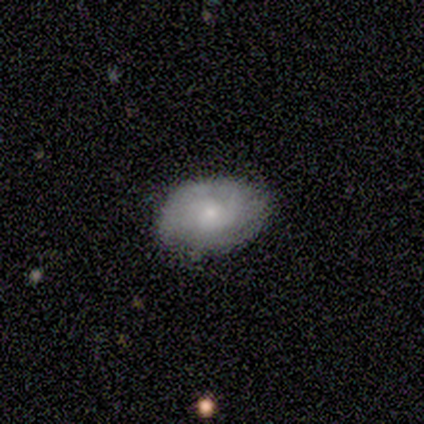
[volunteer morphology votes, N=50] A smooth galaxy with no disk features (58%) that is in between round and cigar-shaped (86%).

Vote fractions:
- Smooth or featured? smooth: 58% / featured or disk: 42% / star or artifact: 0%
- How rounded? in between: 86% / round: 14% / cigar-shaped: 0%
- Merging? none: 74% / minor disturbance: 20% / major disturbance: 4% / merger: 2%